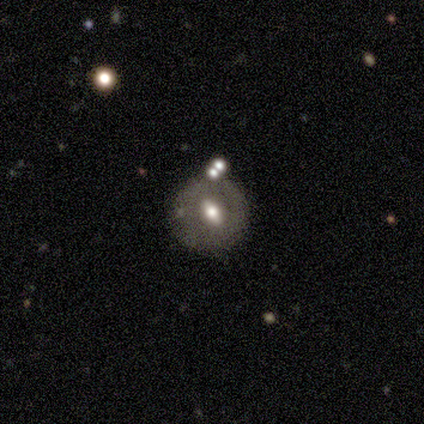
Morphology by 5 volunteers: Smooth or featured? 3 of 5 (60%) said featured or disk. Edge-on disk? 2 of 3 (67%) said yes. Edge-on bulge? 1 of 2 (50%, tied with rounded) said boxy. Merging? 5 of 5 (100%) said none.